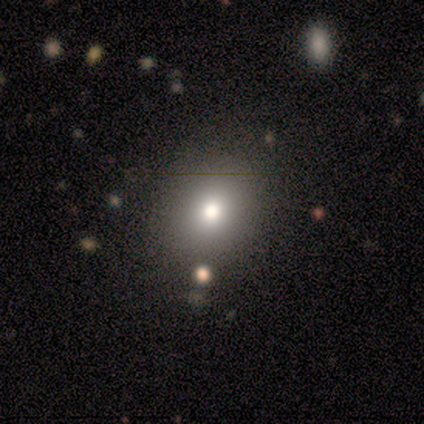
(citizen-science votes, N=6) A smooth galaxy with no disk features (67%) that is round (50%, tied with in between).

Vote fractions:
- Smooth or featured? smooth: 67% / featured or disk: 17% / star or artifact: 17%
- How rounded? round: 50% (tied) / in between: 50% (tied) / cigar-shaped: 0%
- Merging? none: 100% / minor disturbance: 0% / major disturbance: 0% / merger: 0%